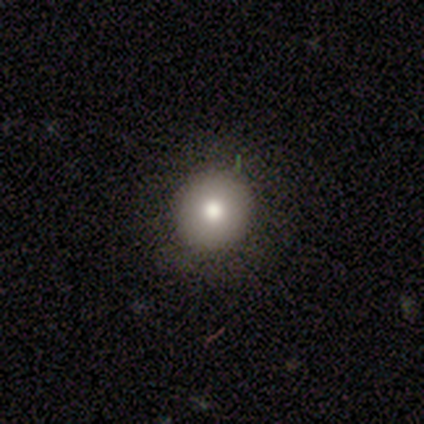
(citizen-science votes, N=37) smooth-or-featured: smooth: 70% | featured or disk: 16% | star or artifact: 14%
  how-rounded: round: 92% | in between: 8% | cigar-shaped: 0%
  merging: none: 78% | major disturbance: 12% | minor disturbance: 9% | merger: 0%